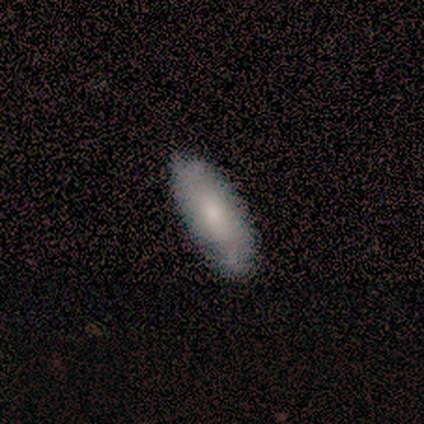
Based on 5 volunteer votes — Q: Smooth or featured?
A: featured or disk (60%); runner-up: smooth (40%)
Q: Edge-on disk?
A: no (100%)
Q: Bar?
A: no (67%); runner-up: strong (33%)
Q: Spiral arms?
A: yes (100%)
Q: Spiral winding?
A: loose (67%); runner-up: medium (33%)
Q: Spiral arm count?
A: 2 (67%); runner-up: can't tell (33%)
Q: Bulge size?
A: large (33%); tied with: small (33%); none (33%)
Q: Merging?
A: none (100%)